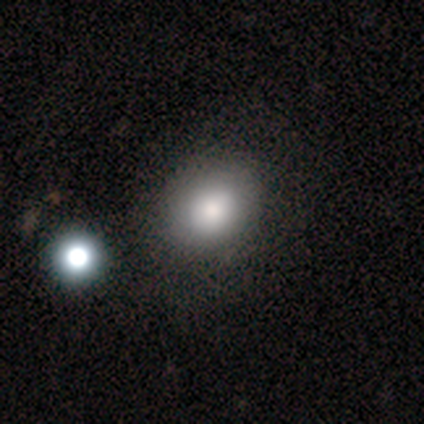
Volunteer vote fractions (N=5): A smooth galaxy with no disk features (100%) that is in between round and cigar-shaped (60%). Merging: none (60%).